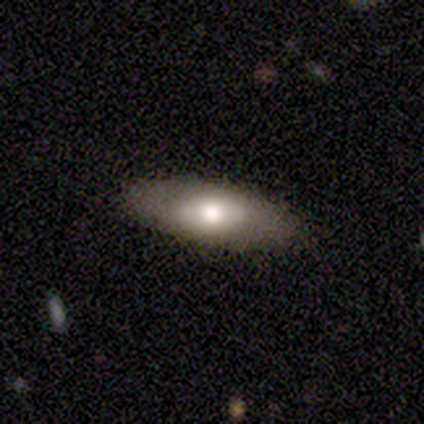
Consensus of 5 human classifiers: This is likely a featured or disk galaxy (60%). It is clearly not viewed edge-on (100%). Bar: clearly no (100%). Spiral arm pattern: clearly no (100%). Central bulge: likely moderate (67%). Merging: clearly none (80%).